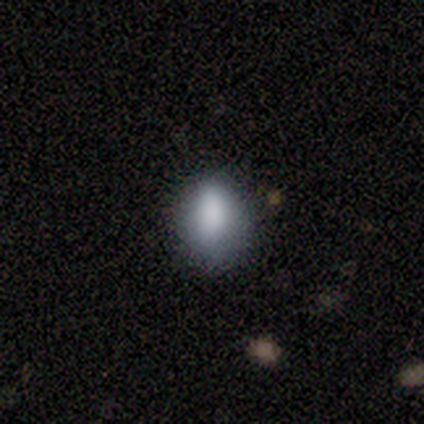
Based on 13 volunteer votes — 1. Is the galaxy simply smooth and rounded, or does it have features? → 92% smooth, 8% featured or disk, 0% star or artifact.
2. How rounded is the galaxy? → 58% in between, 42% round, 0% cigar-shaped.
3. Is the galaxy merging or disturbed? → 85% none, 15% minor disturbance, 0% major disturbance, 0% merger.